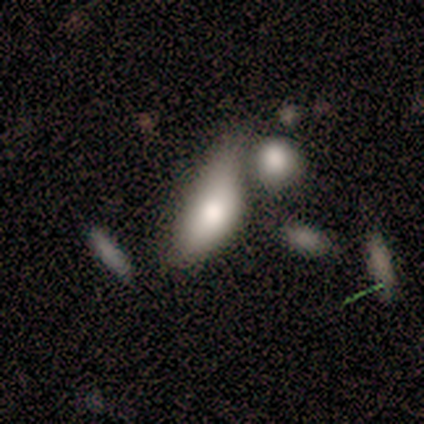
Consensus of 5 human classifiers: Smooth or featured?
  - smooth: 60% *
  - featured or disk: 20%
  - star or artifact: 20%
How rounded?
  - in between: 100% *
  - round: 0%
  - cigar-shaped: 0%
Merging?
  - major disturbance: 50% * (tied)
  - merger: 50% * (tied)
  - none: 0%
  - minor disturbance: 0%